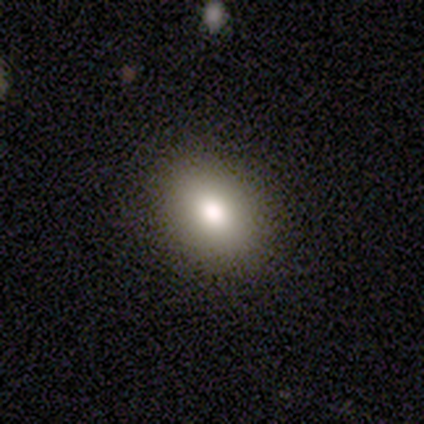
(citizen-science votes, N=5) Overall: smooth (80%). How rounded: in between (75%). Merging: none (75%).